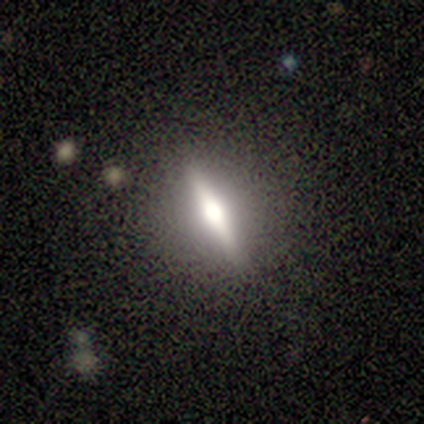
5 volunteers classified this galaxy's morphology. featured or disk 80%, star or artifact 20%, smooth 0%. Down the decision tree: edge-on disk — yes (75%); edge-on bulge — rounded (100%); merging — none (100%).